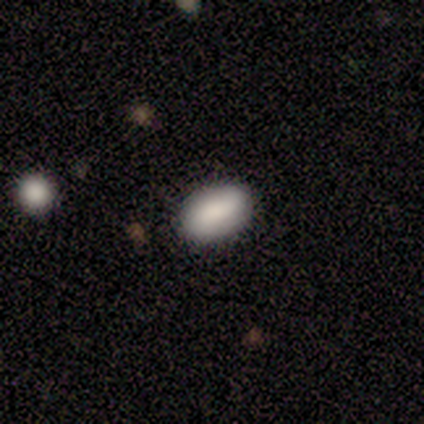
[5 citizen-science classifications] smooth_or_featured: smooth (p=0.80) [alt: star or artifact p=0.20]
how_rounded: in between (p=1.00)
merging: none (p=0.75) [alt: major disturbance p=0.25]